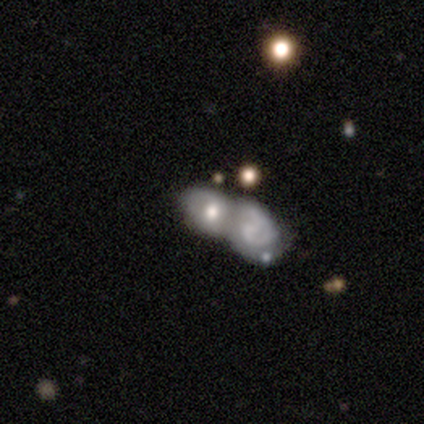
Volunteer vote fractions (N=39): Overall: featured or disk (59%; smooth 36%). Edge-on disk: no (83%). Bar: no (68%). Spiral arms: no (68%; yes 32%). Bulge size: moderate (37%; small 32%). Merging: merger (84%).